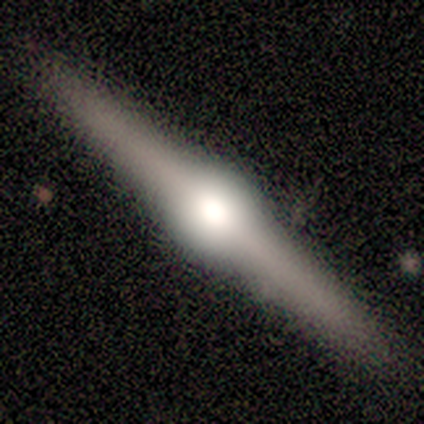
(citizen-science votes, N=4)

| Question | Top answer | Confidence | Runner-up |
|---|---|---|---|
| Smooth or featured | featured or disk | 100% | — |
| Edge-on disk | yes | 100% | — |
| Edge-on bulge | rounded | 100% | — |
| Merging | none | 100% | — |